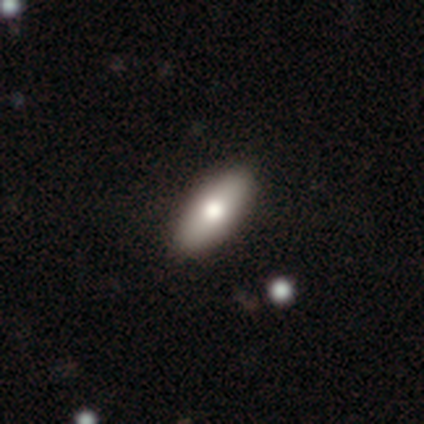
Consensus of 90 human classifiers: Overall: smooth (74%). How rounded: in between (78%). Merging: none (91%).